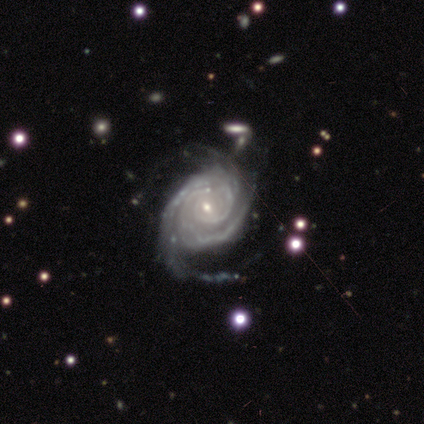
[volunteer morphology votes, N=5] Overall: featured or disk (100%). Edge-on disk: no (100%). Bar: no (80%). Spiral arms: yes (100%). Spiral arm count: can't tell (40%; 2 20%). Spiral winding: tight (100%). Bulge size: small (100%). Merging: minor disturbance (60%; none 40%).